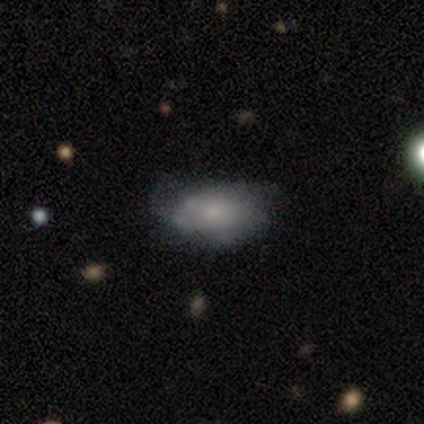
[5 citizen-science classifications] Overall: smooth (80%). How rounded: in between (100%). Merging: minor disturbance (75%).